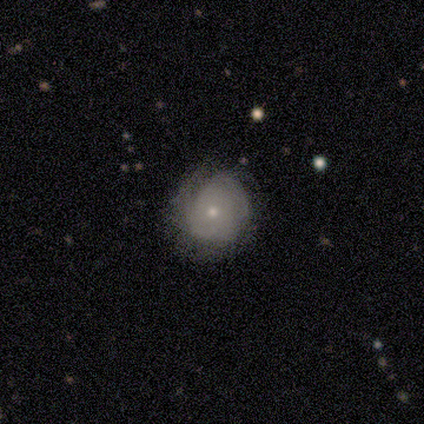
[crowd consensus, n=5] A featured or disk galaxy (60%) with no bar (100%), 2 (50%, tied with can't tell) tight (50%, tied with medium) spiral arms (67%) and a small central bulge (67%). Merging: none (60%).